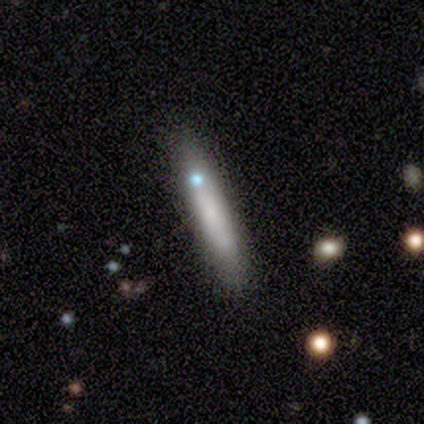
smooth-or-featured: smooth: 80% | featured or disk: 20% | star or artifact: 0%
  how-rounded: cigar-shaped: 100% | round: 0% | in between: 0%
  merging: none: 40% (tied) | minor disturbance: 40% (tied) | merger: 20% | major disturbance: 0%